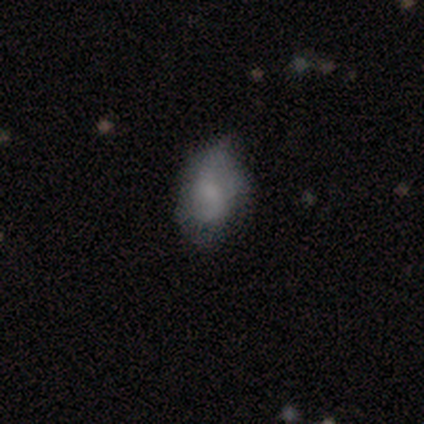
smooth-or-featured: smooth: 100% | featured or disk: 0% | star or artifact: 0%
  how-rounded: in between: 100% | round: 0% | cigar-shaped: 0%
  merging: minor disturbance: 80% | none: 20% | major disturbance: 0% | merger: 0%